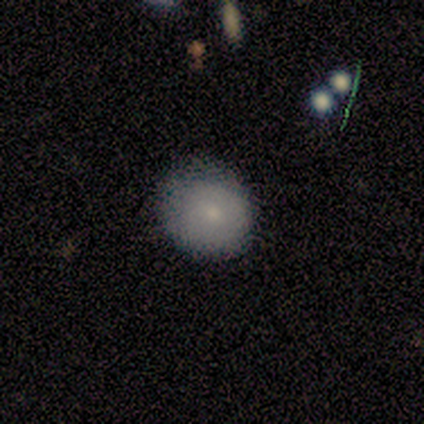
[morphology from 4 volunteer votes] A smooth galaxy with no disk features (100%) that is round (50%, tied with in between). Merging: none (50%, tied with minor disturbance).